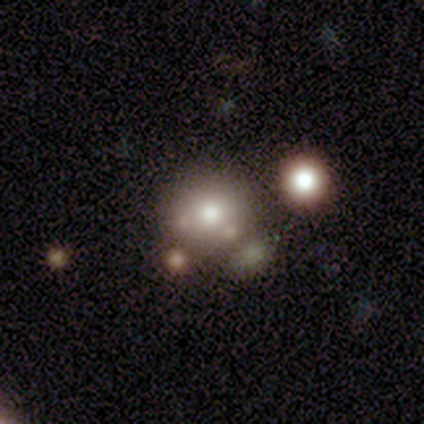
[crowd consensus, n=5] This appears to be a smooth galaxy with no disk features (80%) that is round (100%). Merging: none (60%).